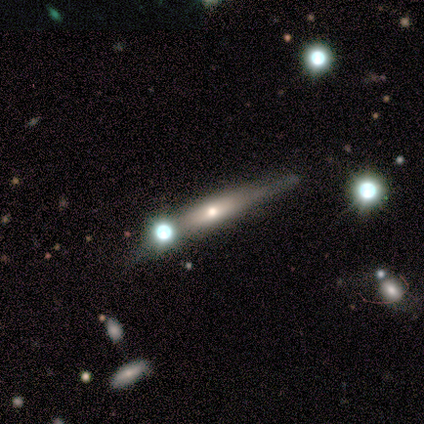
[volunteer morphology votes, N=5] Volunteers were most divided on "smooth or featured": featured or disk: 60%, smooth: 40%, star or artifact: 0%. More confident: bar — no (100%); spiral arms — no (100%); bulge size — small (100%); merging — none (80%); edge-on disk — no (67%).